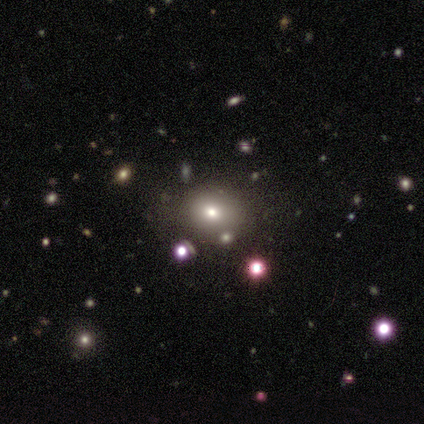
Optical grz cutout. It shows a smooth galaxy with no disk features (100%) that is in between round and cigar-shaped (75%). Merging: none (100%).